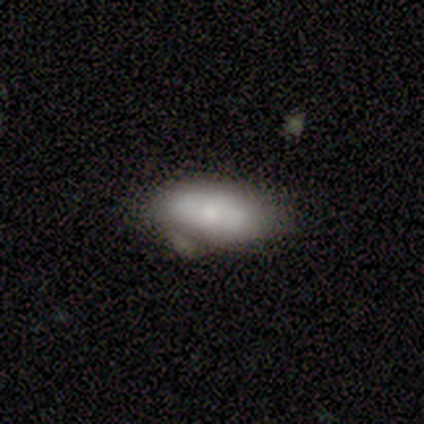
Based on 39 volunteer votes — smooth_or_featured: smooth (p=0.69) [alt: featured or disk p=0.23]
how_rounded: in between (p=0.85) [alt: cigar-shaped p=0.11]
merging: none (p=0.58) [alt: minor disturbance p=0.19]